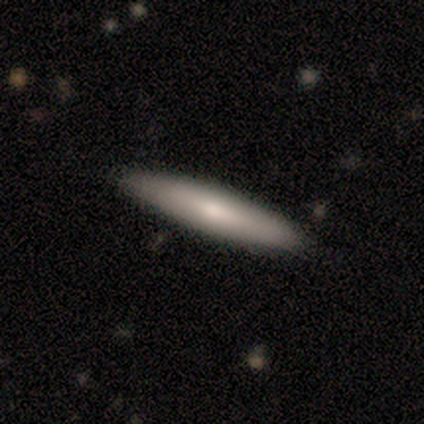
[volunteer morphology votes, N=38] Overall: smooth (71%). How rounded: cigar-shaped (96%). Merging: none (97%).